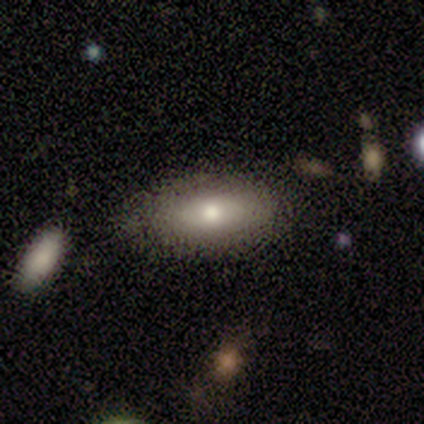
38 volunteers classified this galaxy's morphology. smooth 74%, featured or disk 18%, star or artifact 8%. Down the decision tree: how rounded — in between (82%); merging — none (83%).